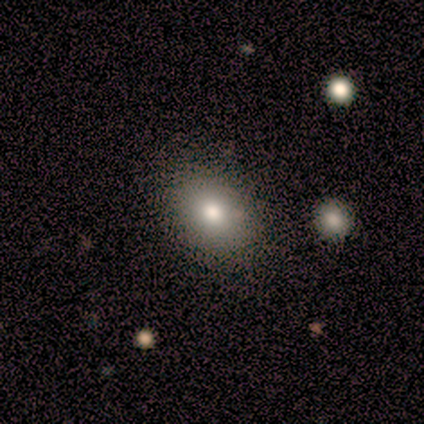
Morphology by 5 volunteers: Smooth or featured?
  - smooth: 80% *
  - star or artifact: 20%
  - featured or disk: 0%
How rounded?
  - in between: 100% *
  - round: 0%
  - cigar-shaped: 0%
Merging?
  - none: 50% * (tied)
  - major disturbance: 50% * (tied)
  - minor disturbance: 0%
  - merger: 0%